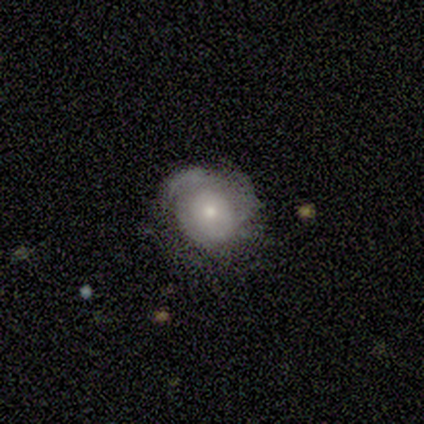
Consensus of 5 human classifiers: Q: Smooth or featured?
A: featured or disk (80%); runner-up: smooth (20%)
Q: Edge-on disk?
A: no (100%)
Q: Bar?
A: no (75%); runner-up: weak (25%)
Q: Spiral arms?
A: yes (50%); tied with: no (50%)
Q: Spiral winding?
A: tight (50%); tied with: loose (50%)
Q: Spiral arm count?
A: 2 (50%); tied with: 3 (50%)
Q: Bulge size?
A: moderate (50%); tied with: small (50%)
Q: Merging?
A: none (80%); runner-up: major disturbance (20%)